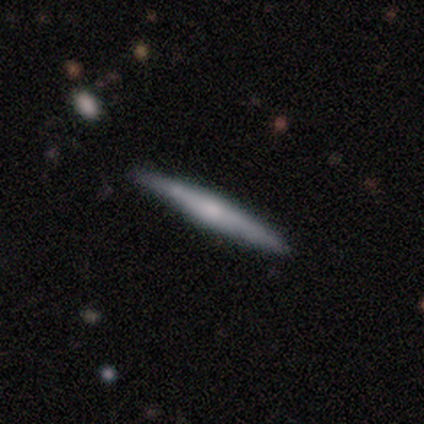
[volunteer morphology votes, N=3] Smooth or featured? 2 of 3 (67%) said smooth. How rounded? 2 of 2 (100%) said cigar-shaped. Merging? 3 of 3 (100%) said none.